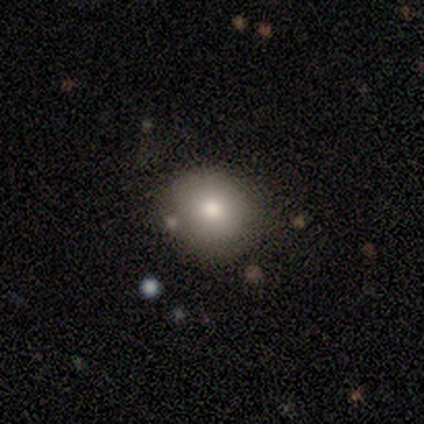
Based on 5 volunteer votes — smooth-or-featured: smooth: 100% | featured or disk: 0% | star or artifact: 0%
  how-rounded: round: 80% | in between: 20% | cigar-shaped: 0%
  merging: none: 80% | major disturbance: 20% | minor disturbance: 0% | merger: 0%